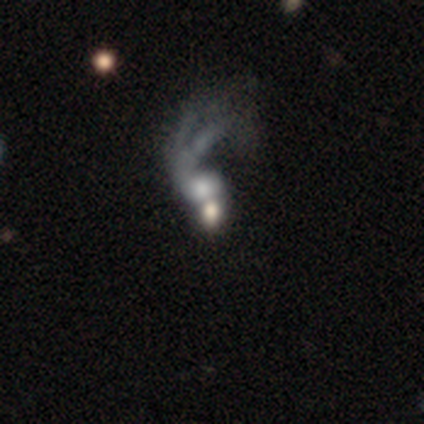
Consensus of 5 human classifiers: smooth_or_featured: featured or disk (p=0.40) [tied with: star or artifact p=0.40]
disk_edge_on: no (p=1.00)
bar: no (p=1.00)
has_spiral_arms: no (p=1.00)
bulge_size: large (p=0.50) [tied with: moderate p=0.50]
merging: major disturbance (p=0.67) [alt: merger p=0.33]